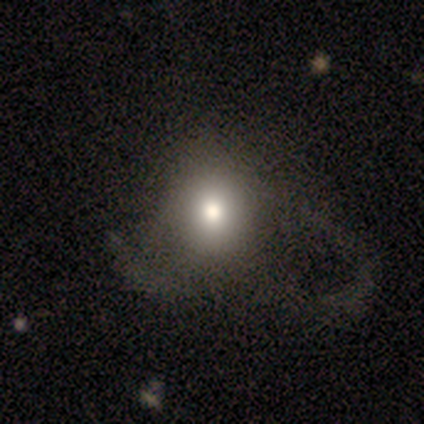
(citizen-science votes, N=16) A smooth galaxy with no disk features (62%) that is round (60%).

Vote fractions:
- Smooth or featured? smooth: 62% / featured or disk: 25% / star or artifact: 12%
- How rounded? round: 60% / in between: 40% / cigar-shaped: 0%
- Merging? major disturbance: 64% / none: 21% / minor disturbance: 14% / merger: 0%